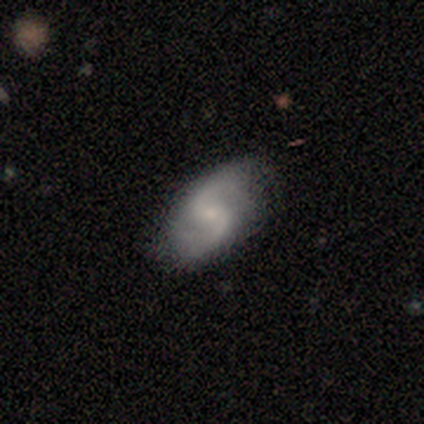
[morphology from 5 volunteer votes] Q: Smooth or featured?
A: featured or disk (60%); runner-up: smooth (20%)
Q: Edge-on disk?
A: no (100%)
Q: Bar?
A: no (67%); runner-up: weak (33%)
Q: Spiral arms?
A: yes (100%)
Q: Spiral winding?
A: medium (67%); runner-up: loose (33%)
Q: Spiral arm count?
A: 2 (100%)
Q: Bulge size?
A: small (100%)
Q: Merging?
A: none (100%)